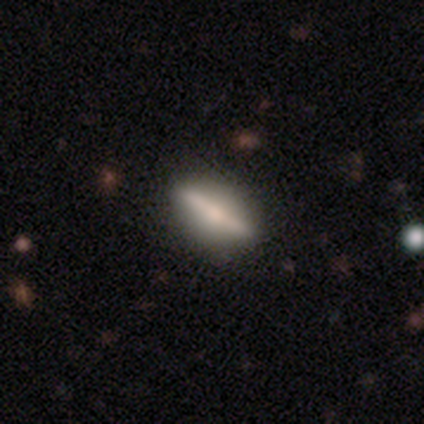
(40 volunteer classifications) This is likely a featured or disk galaxy (62%). It is clearly viewed edge-on (80%). Edge-on bulge: likely rounded (75%). Merging: possibly none (49%).